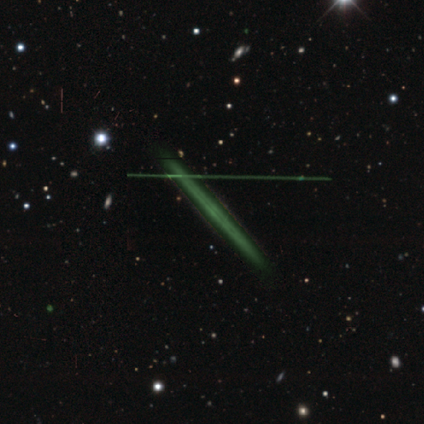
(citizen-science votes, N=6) Smooth or featured: featured or disk — 67% (smooth — 17%)
Edge-on disk: yes — 100%
Edge-on bulge: none — 100%
Merging: none — 100%